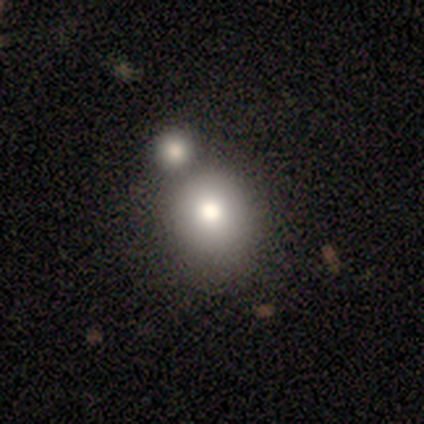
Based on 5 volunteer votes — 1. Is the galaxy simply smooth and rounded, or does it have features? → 60% smooth, 20% featured or disk, 20% star or artifact.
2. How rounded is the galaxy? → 100% round, 0% in between, 0% cigar-shaped.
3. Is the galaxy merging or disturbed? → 50% none (tied), 50% minor disturbance (tied), 0% major disturbance, 0% merger.